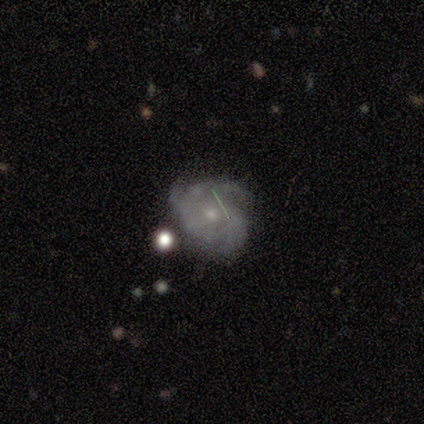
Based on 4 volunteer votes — Morphology: type=featured or disk (75%); edge-on=no (100%); bar=no (67%); spiral arms=yes (67%); winding=medium (100%); arm count=2 (50%, tied with 4); bulge=small (100%); merging=none (75%).